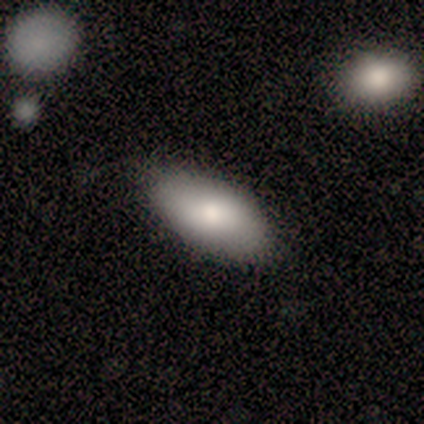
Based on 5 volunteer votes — Overall: smooth (100%). How rounded: in between (100%). Merging: none (80%).